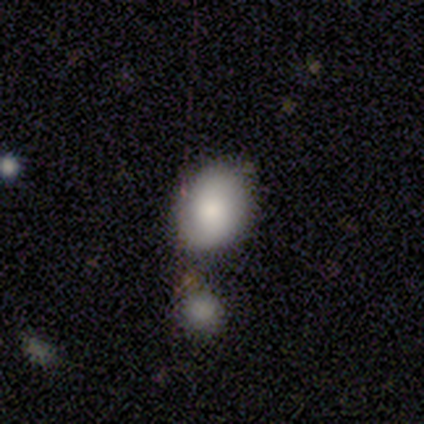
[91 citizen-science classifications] smooth_or_featured: smooth (p=0.82) [alt: featured or disk p=0.12]
how_rounded: in between (p=0.81) [alt: round p=0.19]
merging: none (p=0.57) [alt: minor disturbance p=0.21]